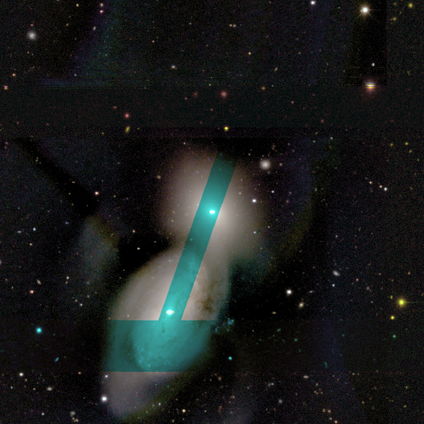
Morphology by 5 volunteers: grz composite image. It shows a featured or disk galaxy (60%) with no bar (100%), no spiral arms (67%) and a small central bulge (100%). Merging: merger (100%).